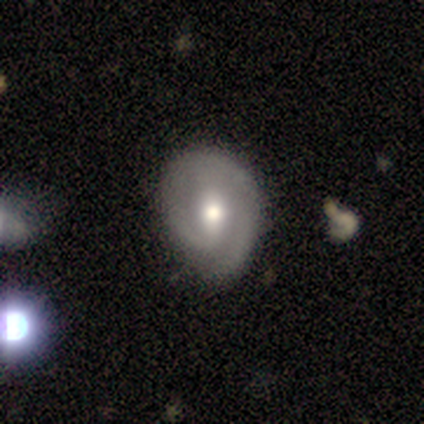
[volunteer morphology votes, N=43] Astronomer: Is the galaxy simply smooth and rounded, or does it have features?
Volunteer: featured or disk — 81%.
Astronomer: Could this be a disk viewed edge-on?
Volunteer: no — 97%.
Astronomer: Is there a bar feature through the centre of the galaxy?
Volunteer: weak — 53%.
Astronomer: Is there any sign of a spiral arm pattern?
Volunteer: yes — 88%.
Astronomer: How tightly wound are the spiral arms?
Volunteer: tight — 63%.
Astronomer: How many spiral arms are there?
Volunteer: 2 — 47% (runner-up: 1, 43%).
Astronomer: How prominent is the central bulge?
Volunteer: moderate — 74%.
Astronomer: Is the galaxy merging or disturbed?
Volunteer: none — 60%.